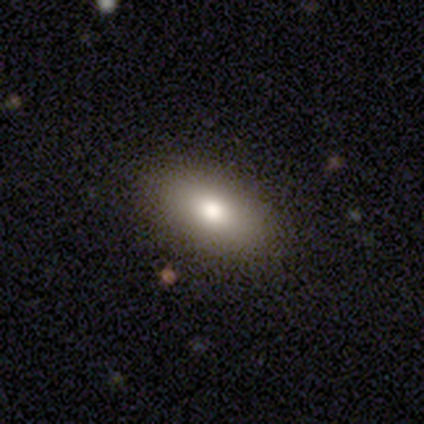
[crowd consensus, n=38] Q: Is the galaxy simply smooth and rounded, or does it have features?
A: smooth — 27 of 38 (71%).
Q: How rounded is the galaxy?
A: in between — 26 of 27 (96%).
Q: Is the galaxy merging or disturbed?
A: none — 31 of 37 (84%).